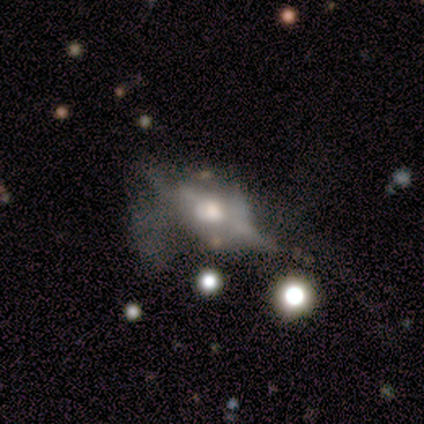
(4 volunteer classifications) smooth_or_featured: featured or disk (p=1.00)
disk_edge_on: yes (p=0.75) [alt: no p=0.25]
edge_on_bulge: boxy (p=0.67) [alt: rounded p=0.33]
merging: none (p=0.50) [alt: minor disturbance p=0.25]